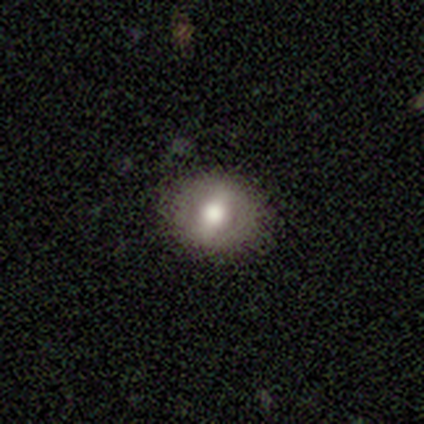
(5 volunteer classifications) Smooth or featured? 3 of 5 (60%) said smooth. How rounded? 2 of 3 (67%) said round. Merging? 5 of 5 (100%) said none.